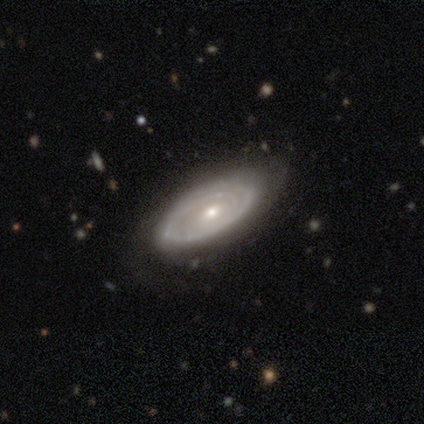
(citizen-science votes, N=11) This is clearly a featured or disk galaxy (82%). It is clearly not viewed edge-on (89%). Bar: clearly no (88%). Spiral arm pattern: clearly yes (88%). Spiral arm count: marginally 2 (43%). Spiral winding: marginally tight (43%). Central bulge: possibly moderate (50%). Merging: likely none (73%).